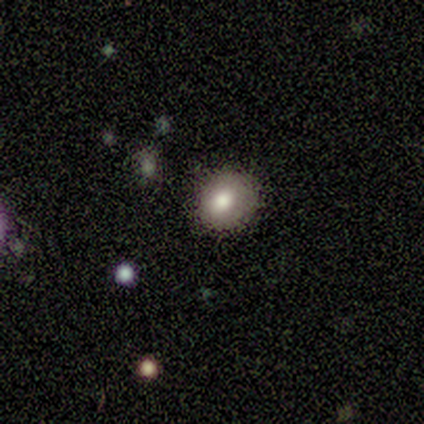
Q: Smooth or featured?
A: smooth (100%)
Q: How rounded?
A: round (50%); tied with: in between (50%)
Q: Merging?
A: none (75%); runner-up: minor disturbance (25%)